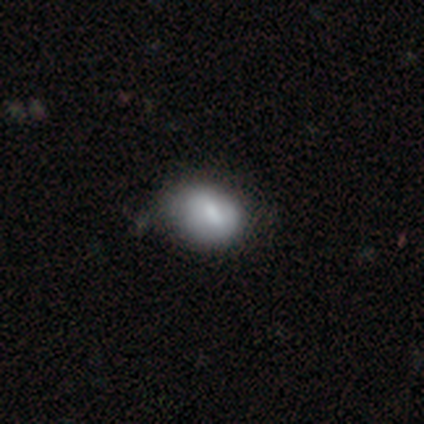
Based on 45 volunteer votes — smooth_or_featured: smooth (p=0.69) [alt: featured or disk p=0.22]
how_rounded: in between (p=0.55) [alt: round p=0.45]
merging: none (p=0.56) [alt: minor disturbance p=0.32]